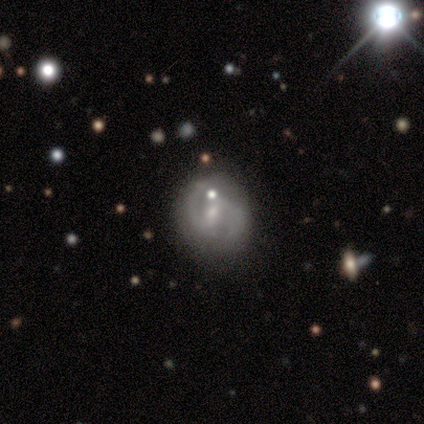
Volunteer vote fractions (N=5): Smooth or featured? 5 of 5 (100%) said featured or disk. Edge-on disk? 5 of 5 (100%) said no. Bar? 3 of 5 (60%) said weak. Spiral arms? 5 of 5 (100%) said yes. Spiral winding? 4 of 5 (80%) said medium. Spiral arm count? 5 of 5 (100%) said 2. Bulge size? 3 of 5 (60%) said moderate. Merging? 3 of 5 (60%) said none.